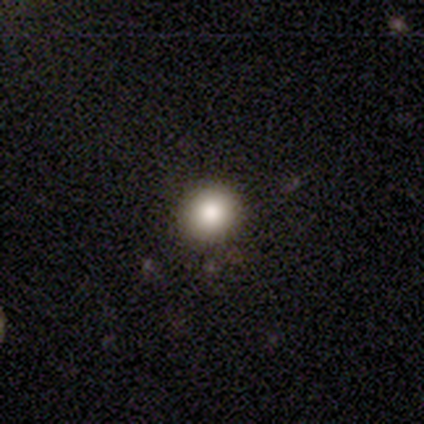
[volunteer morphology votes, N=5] A smooth galaxy with no disk features (100%) that is round (100%).

Vote fractions:
- Smooth or featured? smooth: 100% / featured or disk: 0% / star or artifact: 0%
- How rounded? round: 100% / in between: 0% / cigar-shaped: 0%
- Merging? none: 100% / minor disturbance: 0% / major disturbance: 0% / merger: 0%